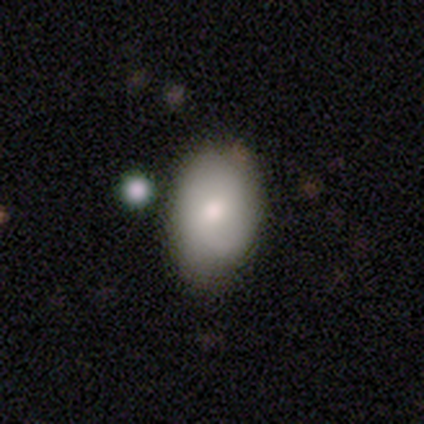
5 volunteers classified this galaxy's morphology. Smooth or featured: smooth — 80% (featured or disk — 20%)
How rounded: in between — 100%
Merging: none — 40% (minor disturbance — 20%)